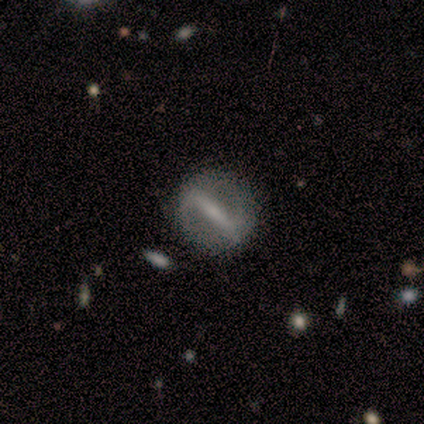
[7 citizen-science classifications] This appears to be a featured or disk galaxy (86%) with a strong bar (100%), 2 (67%) loose (67%) spiral arms (50%, tied with no) and a moderate central bulge (33%, tied with small). Merging: none (86%).